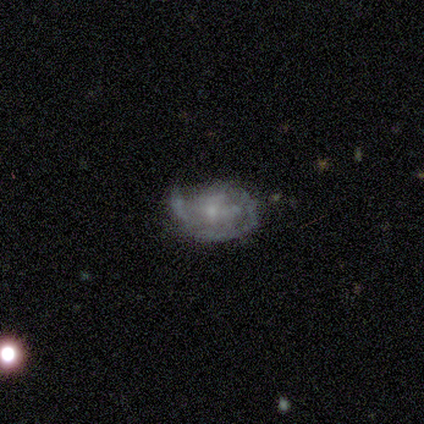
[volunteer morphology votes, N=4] Overall: featured or disk (100%). Edge-on disk: no (100%). Bar: no (100%). Spiral arms: no (75%). Bulge size: small (75%). Merging: none (50%, tied with minor disturbance).